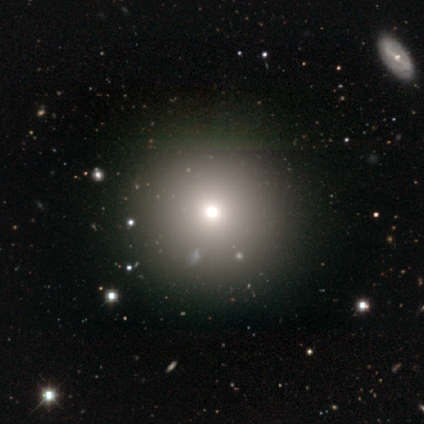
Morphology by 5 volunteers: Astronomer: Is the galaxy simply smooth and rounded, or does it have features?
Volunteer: smooth — 60% (runner-up: star or artifact, 40%).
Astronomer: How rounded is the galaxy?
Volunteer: round — 100%.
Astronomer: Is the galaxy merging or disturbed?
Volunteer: none — 67%.